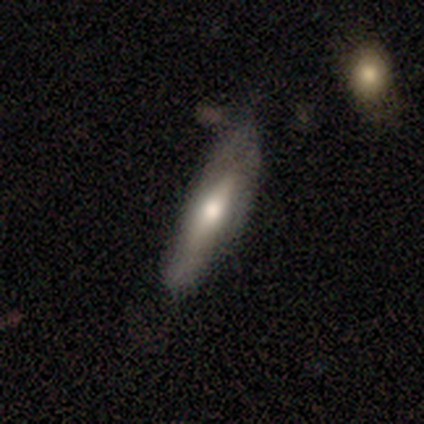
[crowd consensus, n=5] Smooth or featured?
  - featured or disk: 60% *
  - smooth: 40%
  - star or artifact: 0%
Edge-on disk?
  - yes: 67% *
  - no: 33%
Edge-on bulge?
  - rounded: 100% *
  - boxy: 0%
  - none: 0%
Merging?
  - none: 40% * (tied)
  - minor disturbance: 40% * (tied)
  - merger: 20%
  - major disturbance: 0%